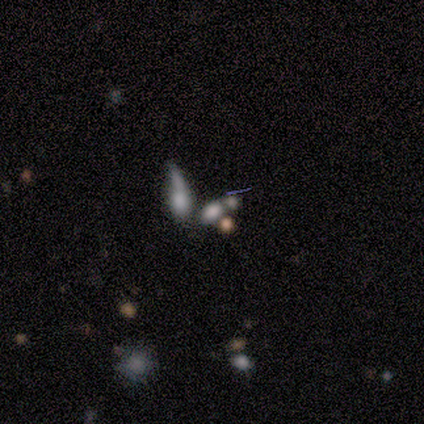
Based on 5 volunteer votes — Volunteers were most divided on "merging" (2-way tie): none: 40%, merger: 40%, major disturbance: 20%, minor disturbance: 0%. More confident: how rounded — in between (100%); smooth or featured — smooth (60%).